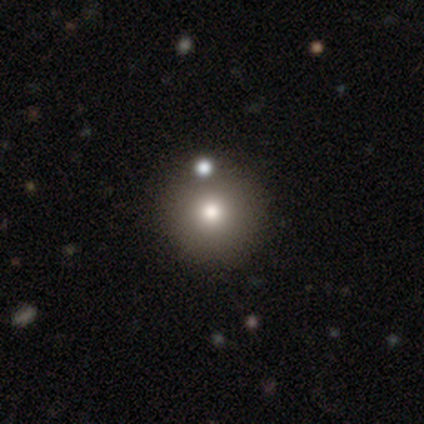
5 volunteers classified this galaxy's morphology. Volunteers were most divided on "smooth or featured": star or artifact: 60%, smooth: 40%, featured or disk: 0%.